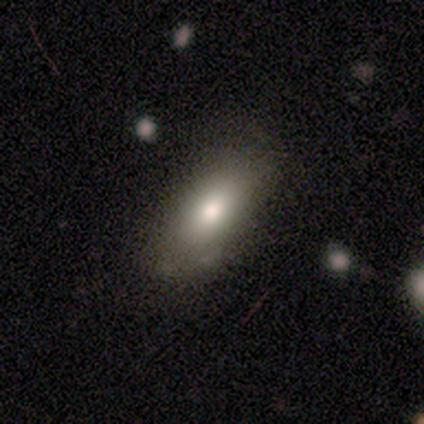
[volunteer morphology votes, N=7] Q: Smooth or featured?
A: smooth (86%); runner-up: featured or disk (14%)
Q: How rounded?
A: in between (100%)
Q: Merging?
A: none (43%); tied with: minor disturbance (43%)